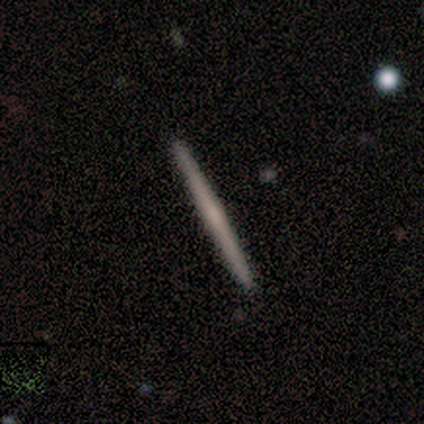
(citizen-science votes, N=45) Morphology: type=featured or disk (51%); edge-on=yes (100%); edge-on bulge=none (61%); merging=none (98%).